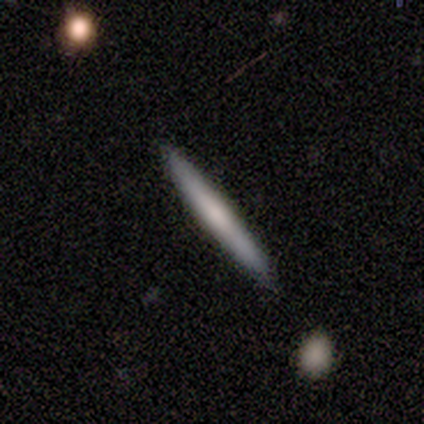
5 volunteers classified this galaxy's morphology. Q: Smooth or featured?
A: smooth (60%); runner-up: featured or disk (40%)
Q: How rounded?
A: cigar-shaped (100%)
Q: Merging?
A: none (100%)